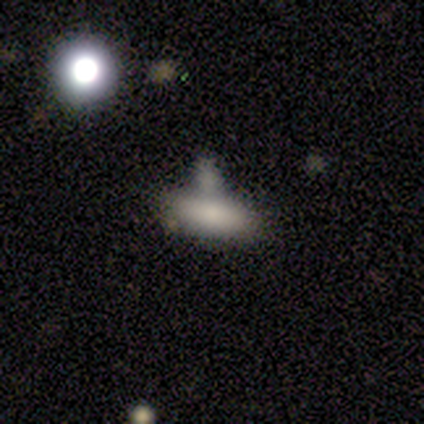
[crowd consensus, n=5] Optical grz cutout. It shows a smooth galaxy with no disk features (100%) that is in between round and cigar-shaped (80%). Merging: none (40%, tied with merger).